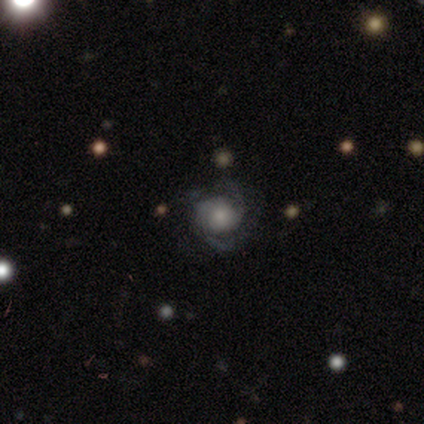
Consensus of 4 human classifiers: This is clearly a featured or disk galaxy (100%). It is clearly not viewed edge-on (100%). Bar: likely no (75%). Spiral arm pattern: clearly yes (100%). Spiral arm count: likely 2 (75%). Spiral winding: possibly loose (50%). Central bulge: possibly moderate (50%). Merging: possibly none (50%).